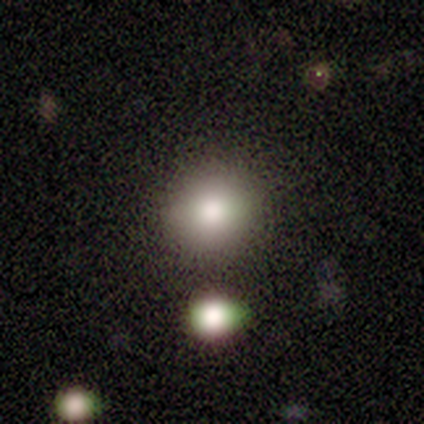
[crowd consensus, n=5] smooth_or_featured: smooth (p=0.80) [alt: featured or disk p=0.20]
how_rounded: round (p=0.75) [alt: in between p=0.25]
merging: none (p=1.00)